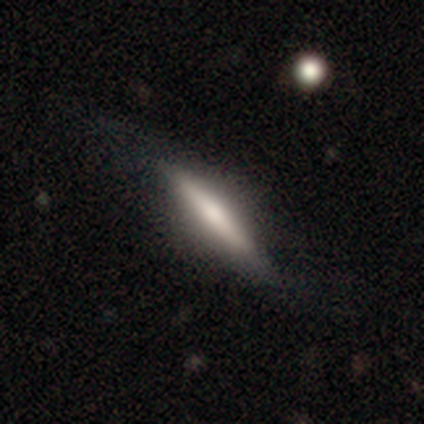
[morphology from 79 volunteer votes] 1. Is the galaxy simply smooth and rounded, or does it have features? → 54% smooth, 43% featured or disk, 3% star or artifact.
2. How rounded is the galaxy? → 88% cigar-shaped, 12% in between, 0% round.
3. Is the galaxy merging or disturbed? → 40% none, 9% minor disturbance, 9% major disturbance, 1% merger.